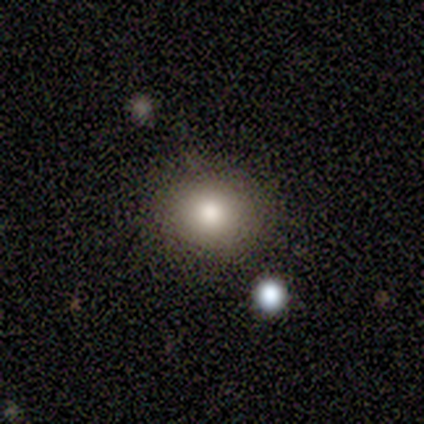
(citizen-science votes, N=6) This appears to be a smooth galaxy with no disk features (100%) that is round (83%). Merging: none (67%).